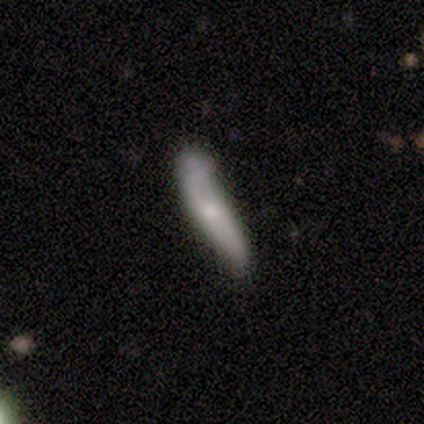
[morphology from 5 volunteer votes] Smooth or featured?
  - smooth: 60% *
  - featured or disk: 40%
  - star or artifact: 0%
How rounded?
  - cigar-shaped: 67% *
  - in between: 33%
  - round: 0%
Merging?
  - minor disturbance: 80% *
  - merger: 20%
  - none: 0%
  - major disturbance: 0%